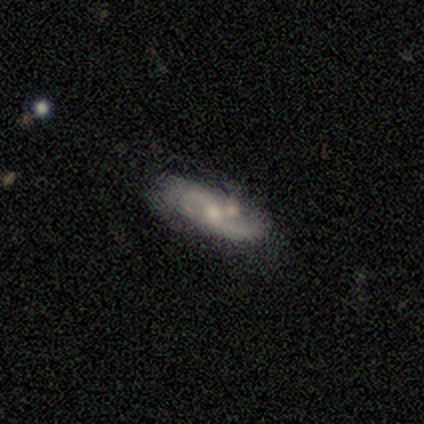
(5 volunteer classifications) featured or disk 100%, smooth 0%, star or artifact 0%. Down the decision tree: edge-on disk — no (100%); bar — weak (80%); spiral arms — yes (80%); spiral arm count — 2 (75%); spiral winding — loose (75%); bulge size — moderate (60%); merging — merger (60%).